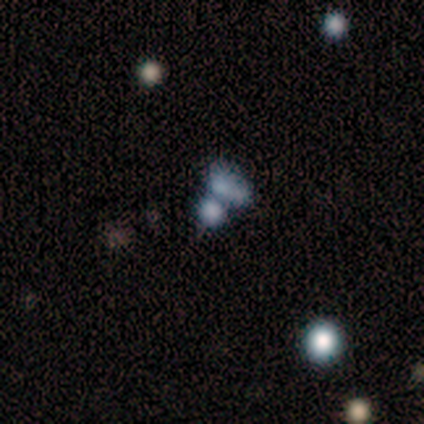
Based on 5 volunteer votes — A smooth galaxy with no disk features (60%) that is in between round and cigar-shaped (100%).

Vote fractions:
- Smooth or featured? smooth: 60% / star or artifact: 40% / featured or disk: 0%
- How rounded? in between: 100% / round: 0% / cigar-shaped: 0%
- Merging? merger: 67% / none: 33% / minor disturbance: 0% / major disturbance: 0%